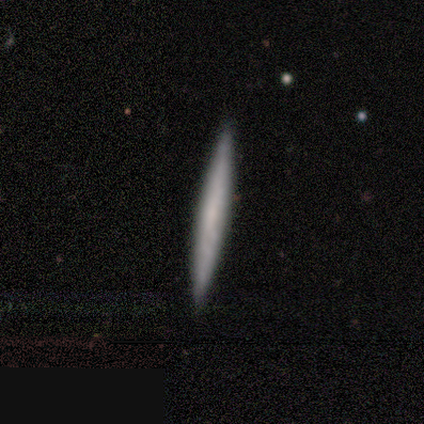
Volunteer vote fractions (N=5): This is likely a smooth galaxy (60%). How rounded: clearly cigar-shaped (100%). Merging: clearly none (100%).